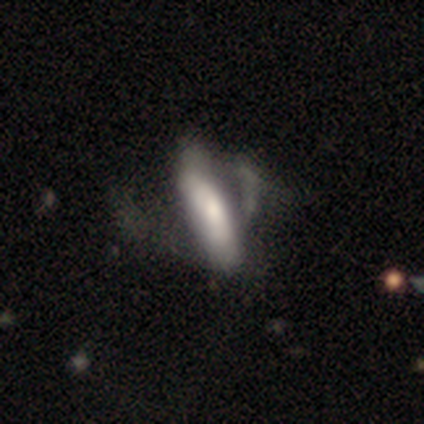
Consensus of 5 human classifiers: A smooth galaxy with no disk features (60%) that is in between round and cigar-shaped (67%). Merging: major disturbance (75%).